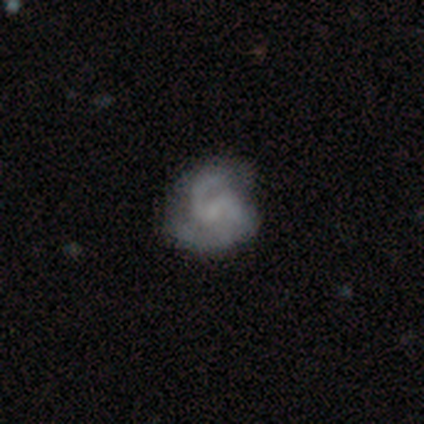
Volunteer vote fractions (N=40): Q: Smooth or featured?
A: featured or disk (82%); runner-up: smooth (15%)
Q: Edge-on disk?
A: no (100%)
Q: Bar?
A: weak (55%); runner-up: no (42%)
Q: Spiral arms?
A: yes (91%); runner-up: no (9%)
Q: Spiral winding?
A: medium (63%); runner-up: tight (27%)
Q: Spiral arm count?
A: 2 (70%); runner-up: 3 (20%)
Q: Bulge size?
A: none (58%); runner-up: small (36%)
Q: Merging?
A: none (72%); runner-up: minor disturbance (21%)